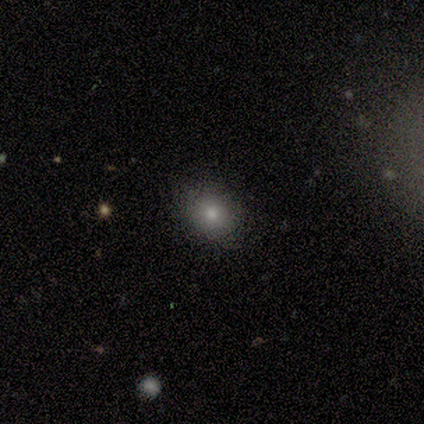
This appears to be a smooth galaxy with no disk features (60%) that is round (67%). Merging: none (80%).